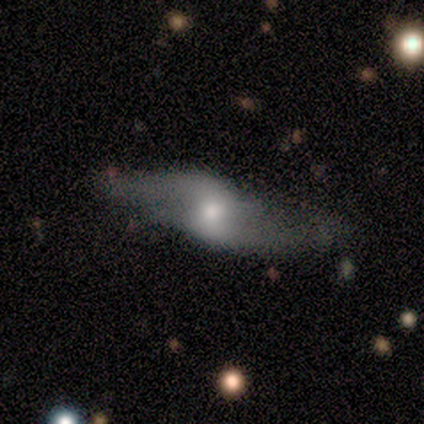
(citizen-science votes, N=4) Q: Smooth or featured?
A: featured or disk (75%); runner-up: smooth (25%)
Q: Edge-on disk?
A: no (67%); runner-up: yes (33%)
Q: Bar?
A: weak (50%); tied with: no (50%)
Q: Spiral arms?
A: yes (100%)
Q: Spiral winding?
A: loose (100%)
Q: Spiral arm count?
A: 2 (100%)
Q: Bulge size?
A: moderate (100%)
Q: Merging?
A: none (75%); runner-up: minor disturbance (25%)